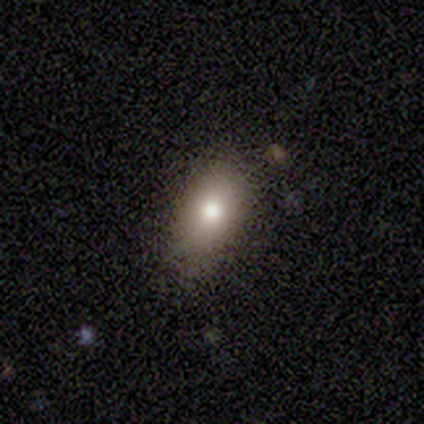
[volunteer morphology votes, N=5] A smooth galaxy with no disk features (80%) that is in between round and cigar-shaped (100%). Merging: none (100%).